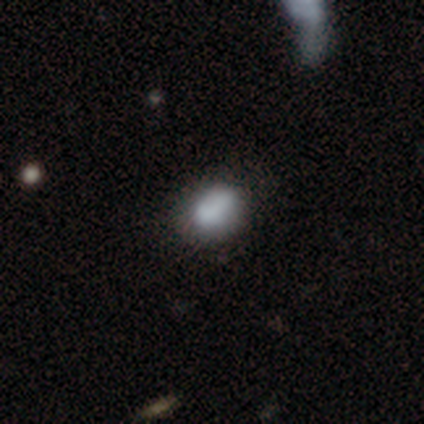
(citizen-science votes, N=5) smooth_or_featured: smooth (p=1.00)
how_rounded: in between (p=0.80) [alt: round p=0.20]
merging: none (p=0.60) [alt: minor disturbance p=0.40]